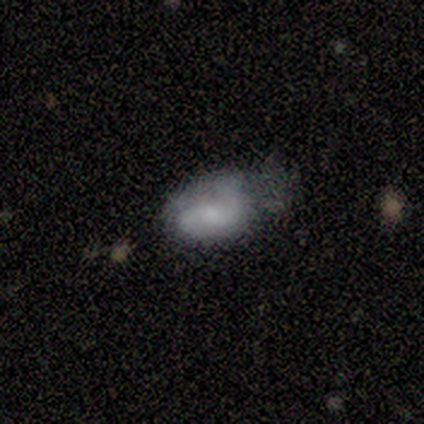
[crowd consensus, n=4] Q: Smooth or featured?
A: smooth (50%); tied with: featured or disk (50%)
Q: How rounded?
A: in between (100%)
Q: Merging?
A: minor disturbance (75%); runner-up: major disturbance (25%)